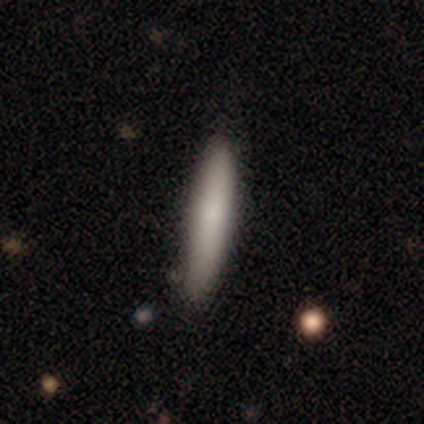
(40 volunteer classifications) A smooth galaxy with no disk features (75%) that is cigar-shaped (97%). Merging: none (92%).